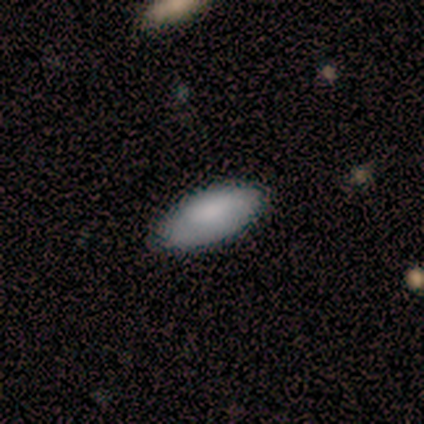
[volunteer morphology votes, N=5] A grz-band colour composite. It shows a smooth galaxy with no disk features (100%) that is in between round and cigar-shaped (80%). Merging: none (80%).